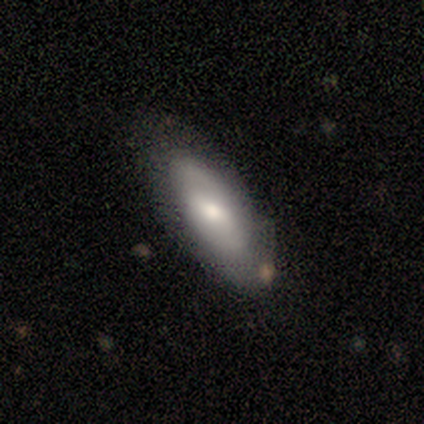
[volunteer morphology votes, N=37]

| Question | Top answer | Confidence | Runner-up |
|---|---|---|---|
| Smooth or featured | smooth | 62% | featured or disk (35%) |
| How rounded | in between | 78% | cigar-shaped (13%) |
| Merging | none | 47% | minor disturbance (36%) |